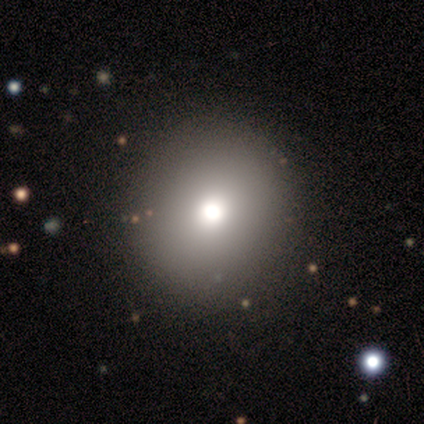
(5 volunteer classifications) Smooth or featured?
  - smooth: 100% *
  - featured or disk: 0%
  - star or artifact: 0%
How rounded?
  - round: 100% *
  - in between: 0%
  - cigar-shaped: 0%
Merging?
  - none: 100% *
  - minor disturbance: 0%
  - major disturbance: 0%
  - merger: 0%